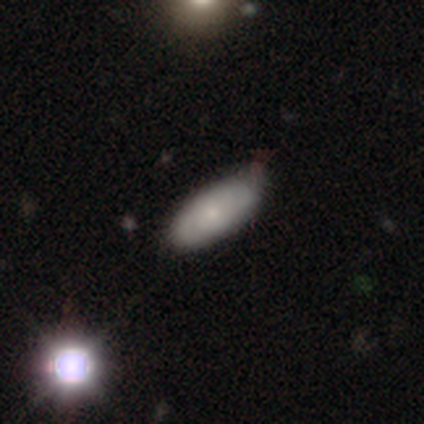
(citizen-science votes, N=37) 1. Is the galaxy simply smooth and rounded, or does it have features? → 62% smooth, 38% featured or disk, 0% star or artifact.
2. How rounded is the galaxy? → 87% in between, 13% cigar-shaped, 0% round.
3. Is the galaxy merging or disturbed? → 78% none, 19% minor disturbance, 3% major disturbance, 0% merger.